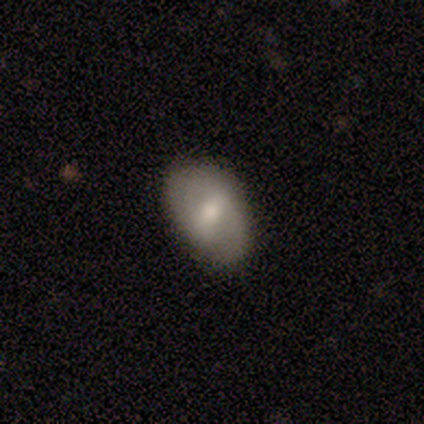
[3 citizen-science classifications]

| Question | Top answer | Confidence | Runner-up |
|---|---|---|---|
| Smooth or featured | smooth | 67% | featured or disk (33%) |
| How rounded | in between | 100% | — |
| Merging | none | 67% | minor disturbance (33%) |